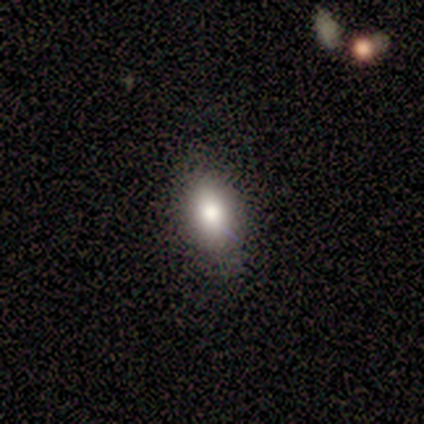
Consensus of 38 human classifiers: A smooth galaxy with no disk features (97%) that is in between round and cigar-shaped (89%). Merging: none (86%).